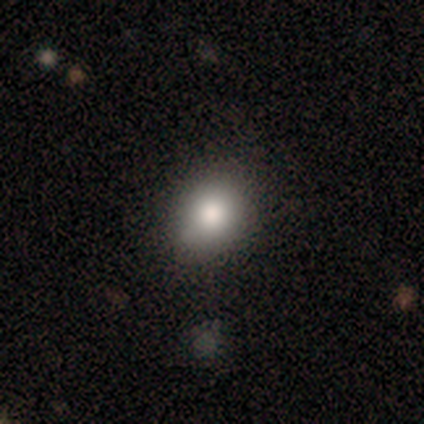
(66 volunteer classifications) Morphology: type=smooth (68%); roundness=round (58%); merging=none (73%).